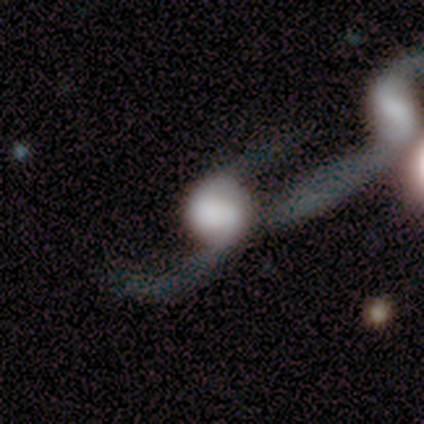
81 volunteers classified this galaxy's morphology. smooth_or_featured: featured or disk (p=0.62) [alt: smooth p=0.32]
disk_edge_on: no (p=0.98) [alt: yes p=0.02]
bar: no (p=0.69) [alt: weak p=0.27]
has_spiral_arms: yes (p=0.76) [alt: no p=0.24]
spiral_winding: loose (p=0.92) [alt: medium p=0.08]
spiral_arm_count: 2 (p=0.65) [alt: 3 p=0.14]
bulge_size: dominant (p=0.33) [alt: large p=0.29]
merging: major disturbance (p=0.45) [alt: merger p=0.36]